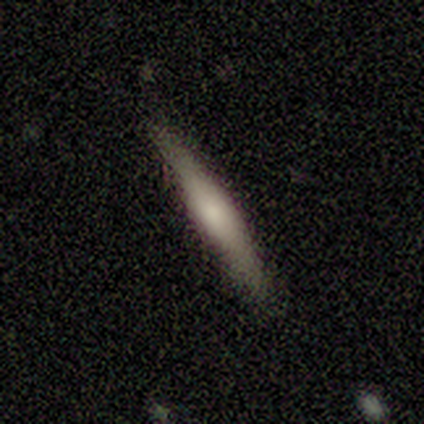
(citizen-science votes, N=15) Smooth or featured: smooth — 53% (featured or disk — 40%)
How rounded: cigar-shaped — 100%
Merging: none — 86% (minor disturbance — 7%)